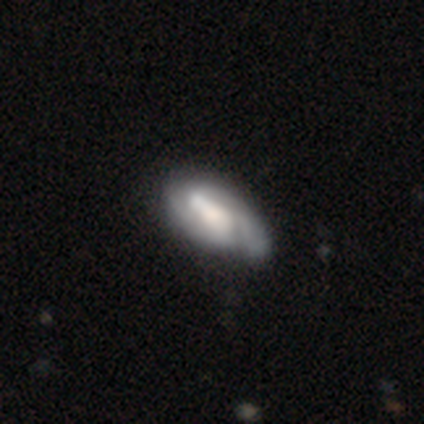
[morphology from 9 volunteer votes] smooth-or-featured: featured or disk: 67% | smooth: 33% | star or artifact: 0%
  disk-edge-on: no: 100% | yes: 0%
    bar: weak: 50% (tied) | no: 50% (tied) | strong: 0%
    has-spiral-arms: yes: 100% | no: 0%
      spiral-winding: medium: 67% | tight: 33% | loose: 0%
      spiral-arm-count: 2: 50% | 3: 33% | can't tell: 17% | 1: 0% | 4: 0% | more than 4: 0%
    bulge-size: moderate: 67% | dominant: 17% | large: 17% | small: 0% | none: 0%
  merging: none: 56% | minor disturbance: 22% | major disturbance: 11% | merger: 11%